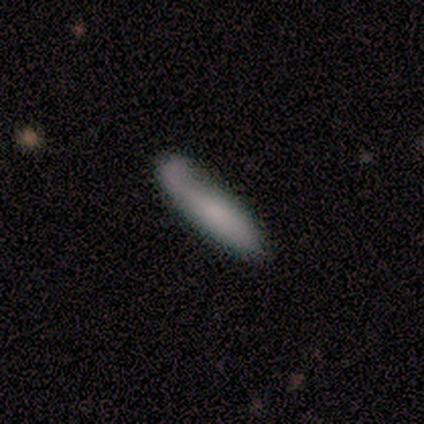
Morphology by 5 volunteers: A smooth galaxy with no disk features (80%) that is cigar-shaped (100%). Merging: none (50%).